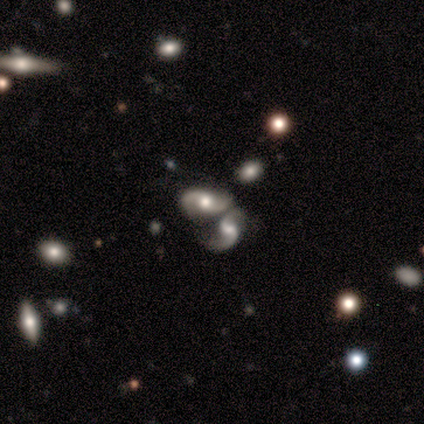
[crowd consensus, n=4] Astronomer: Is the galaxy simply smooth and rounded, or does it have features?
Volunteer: featured or disk — 75%.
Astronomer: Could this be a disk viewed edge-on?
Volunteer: no — 100%.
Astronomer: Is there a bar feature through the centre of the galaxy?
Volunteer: weak — 100%.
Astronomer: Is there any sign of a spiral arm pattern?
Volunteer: yes — 100%.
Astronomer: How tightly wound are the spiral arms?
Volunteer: tight — 33%, tied with medium and loose at 33%.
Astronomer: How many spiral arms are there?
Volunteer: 2 — 100%.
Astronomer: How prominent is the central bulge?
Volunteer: large — 33%, tied with moderate and small at 33%.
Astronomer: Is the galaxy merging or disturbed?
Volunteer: merger — 67%.